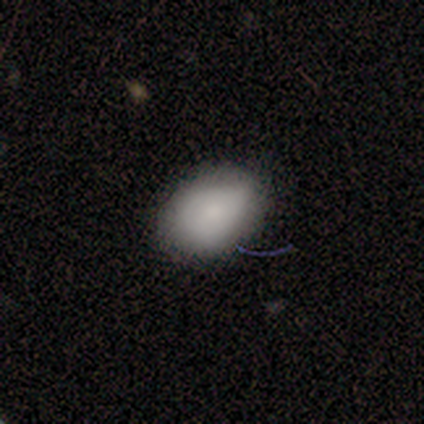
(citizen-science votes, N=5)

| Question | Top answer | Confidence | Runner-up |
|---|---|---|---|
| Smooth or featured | smooth | 80% | featured or disk (20%) |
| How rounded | round | 50% | tied: in between (50%) |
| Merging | none | 60% | minor disturbance (20%) |